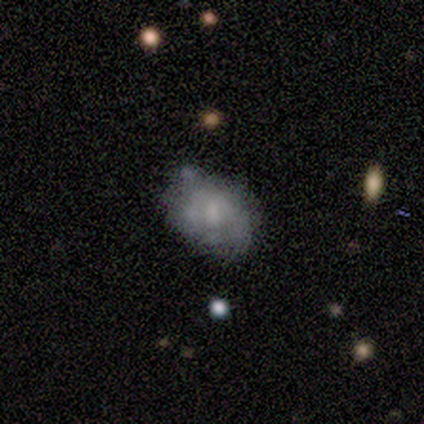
Overall: featured or disk (80%). Edge-on disk: no (100%). Bar: no (75%). Spiral arms: no (75%). Bulge size: large (25%, tied with moderate, small and none). Merging: minor disturbance (60%; none 20%).